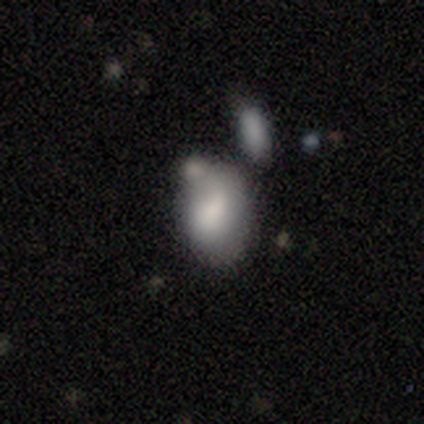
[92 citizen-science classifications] Smooth or featured?
  - smooth: 77% *
  - featured or disk: 14%
  - star or artifact: 9%
How rounded?
  - in between: 79% *
  - round: 18%
  - cigar-shaped: 3%
Merging?
  - none: 35% *
  - minor disturbance: 27%
  - merger: 26%
  - major disturbance: 12%